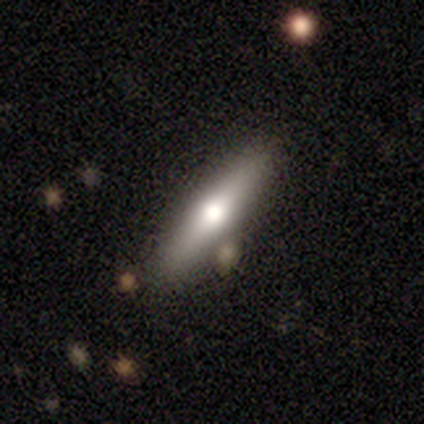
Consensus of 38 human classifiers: smooth_or_featured: smooth (p=0.45) [tied with: featured or disk p=0.45]
how_rounded: cigar-shaped (p=0.82) [alt: in between p=0.18]
merging: none (p=0.74) [alt: minor disturbance p=0.15]